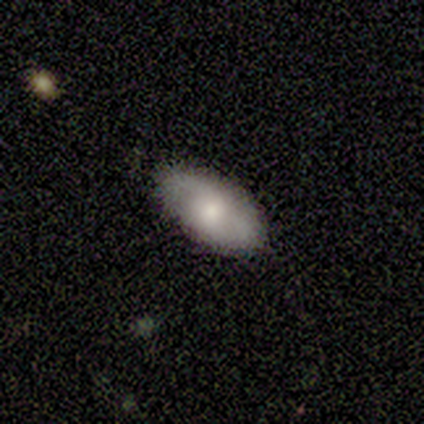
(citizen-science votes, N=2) Smooth or featured: smooth — 50% (tied with star or artifact — 50%)
How rounded: in between — 100%
Merging: none — 100%